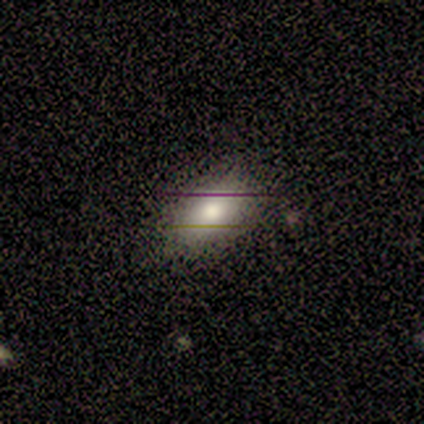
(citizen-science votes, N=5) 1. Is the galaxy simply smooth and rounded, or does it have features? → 100% smooth, 0% featured or disk, 0% star or artifact.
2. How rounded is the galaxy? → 100% in between, 0% round, 0% cigar-shaped.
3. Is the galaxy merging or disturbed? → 80% none, 20% major disturbance, 0% minor disturbance, 0% merger.